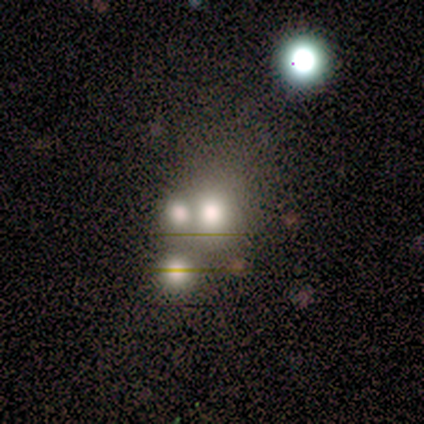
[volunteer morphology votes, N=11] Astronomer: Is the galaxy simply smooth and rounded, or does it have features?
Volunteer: smooth — 45%, tied with star or artifact at 45%.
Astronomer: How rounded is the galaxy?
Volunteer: round — 100%.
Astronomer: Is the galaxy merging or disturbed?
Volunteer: merger — 83%.